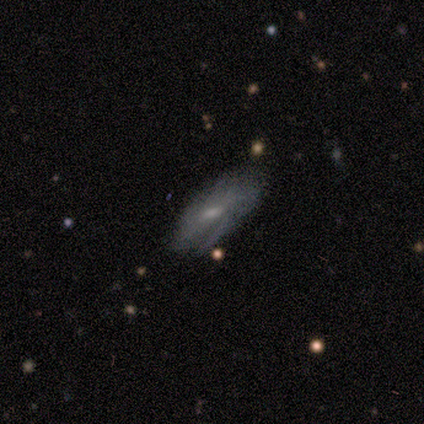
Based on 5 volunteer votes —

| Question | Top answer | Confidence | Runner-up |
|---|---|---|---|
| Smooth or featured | smooth | 40% | tied: featured or disk (40%) |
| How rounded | in between | 100% | — |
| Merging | none | 50% | tied: minor disturbance (50%) |